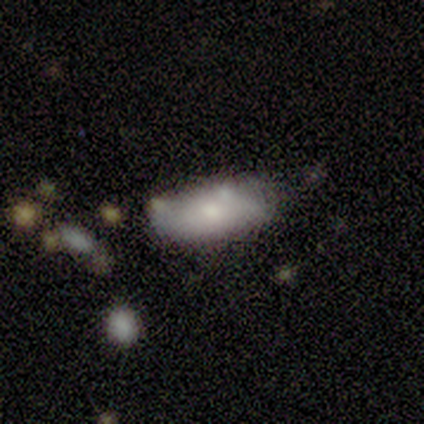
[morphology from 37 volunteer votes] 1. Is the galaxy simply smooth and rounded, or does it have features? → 70% smooth, 27% featured or disk, 3% star or artifact.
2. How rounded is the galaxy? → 88% in between, 12% cigar-shaped, 0% round.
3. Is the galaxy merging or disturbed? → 47% none, 42% minor disturbance, 11% merger, 0% major disturbance.